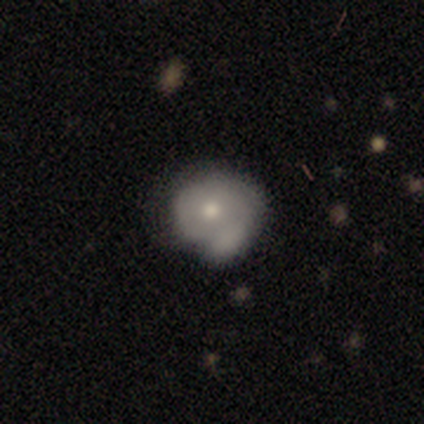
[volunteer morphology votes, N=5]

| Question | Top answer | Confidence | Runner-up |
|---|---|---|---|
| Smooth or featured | smooth | 40% | tied: featured or disk (40%) |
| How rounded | round | 50% | tied: in between (50%) |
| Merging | merger | 50% | none (25%) |